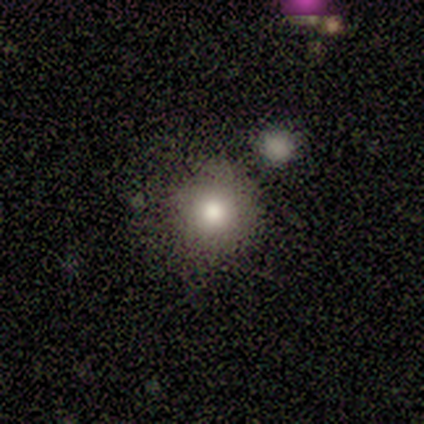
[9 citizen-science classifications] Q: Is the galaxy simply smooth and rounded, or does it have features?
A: smooth — 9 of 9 (100%).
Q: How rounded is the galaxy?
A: round — 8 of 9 (89%).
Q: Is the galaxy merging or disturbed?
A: minor disturbance — 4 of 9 (44%).